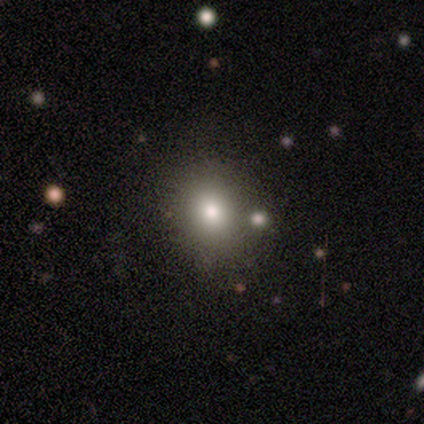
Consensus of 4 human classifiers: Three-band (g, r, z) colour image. It shows a smooth galaxy with no disk features (50%) that is round (100%). Merging: merger (67%).